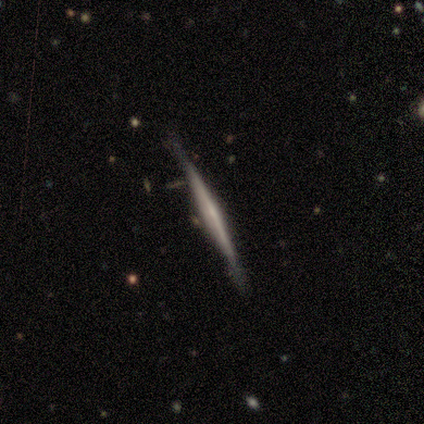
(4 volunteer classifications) A featured or disk galaxy (100%) viewed edge-on (100%) with no central bulge (75%). Merging: none (75%).